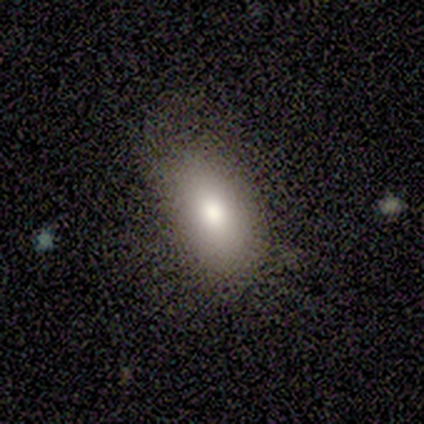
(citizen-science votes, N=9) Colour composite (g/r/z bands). It shows a smooth galaxy with no disk features (89%) that is in between round and cigar-shaped (100%). Merging: none (100%).